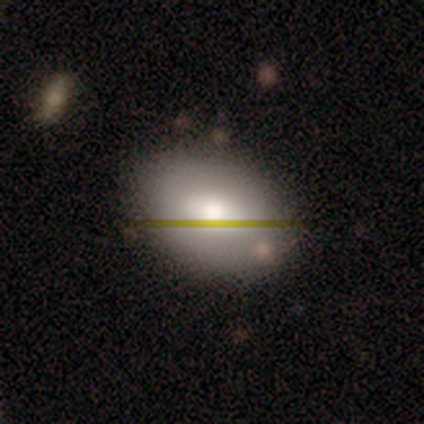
Q: Smooth or featured?
A: smooth (67%); runner-up: featured or disk (33%)
Q: How rounded?
A: in between (75%); runner-up: round (25%)
Q: Merging?
A: none (83%); runner-up: minor disturbance (17%)